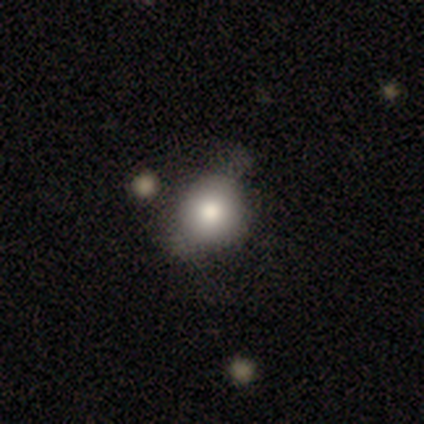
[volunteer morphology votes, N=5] type=smooth (100%); roundness=round (80%); merging=none (60%).